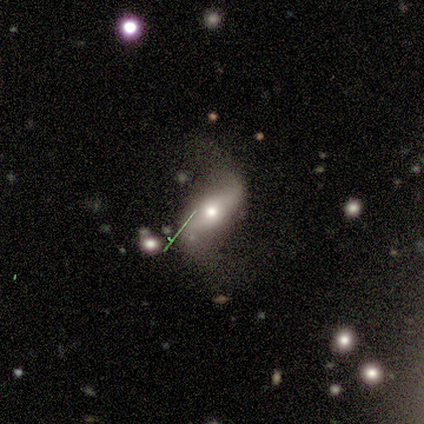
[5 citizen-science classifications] featured or disk 60%, smooth 40%, star or artifact 0%. Down the decision tree: edge-on disk — no (100%); bar — no (67%); spiral arms — yes (67%); spiral arm count — 2 (100%); spiral winding — loose (100%); bulge size — large (33%, tied with moderate and small); merging — none (60%).